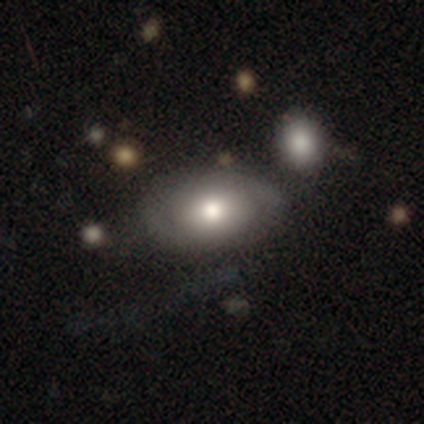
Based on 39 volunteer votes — Overall: smooth (67%; featured or disk 31%). How rounded: in between (85%). Merging: none (68%).